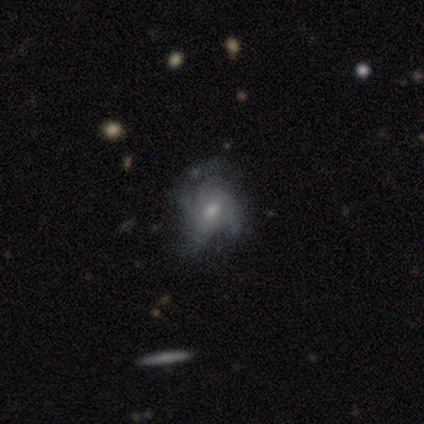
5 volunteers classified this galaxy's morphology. Overall: smooth (40%, tied with featured or disk). How rounded: in between (100%). Merging: major disturbance (50%; none 25%).